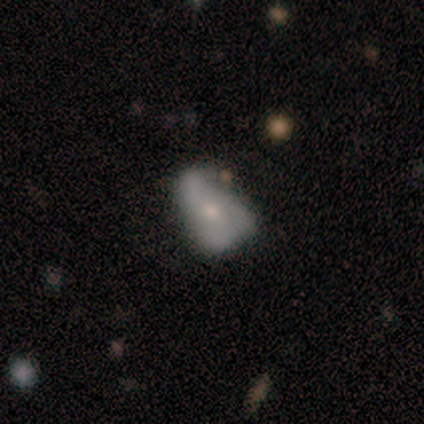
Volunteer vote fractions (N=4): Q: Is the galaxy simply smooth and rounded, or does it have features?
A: featured or disk — 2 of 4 (50%).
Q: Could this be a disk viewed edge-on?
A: no — 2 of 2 (100%).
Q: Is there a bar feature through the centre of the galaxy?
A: weak — 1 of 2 (50%, tied with no).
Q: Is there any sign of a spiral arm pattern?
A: no — 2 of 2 (100%).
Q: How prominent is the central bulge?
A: moderate — 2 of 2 (100%).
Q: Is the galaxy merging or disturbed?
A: major disturbance — 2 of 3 (67%).